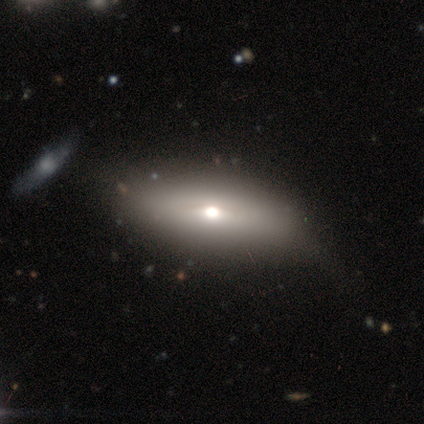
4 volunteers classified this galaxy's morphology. This is likely a smooth galaxy (75%). How rounded: clearly in between (100%). Merging: possibly none (50%, tied with minor disturbance).